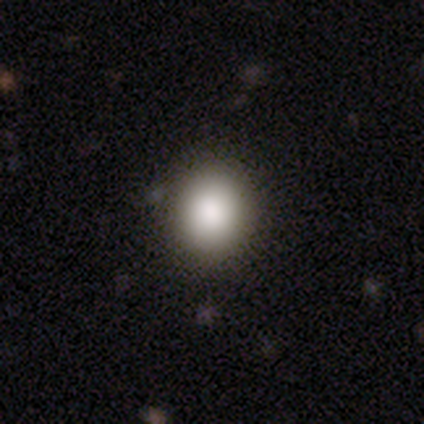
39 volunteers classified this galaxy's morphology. Smooth or featured? smooth (90%)
How rounded? round (69%)
Merging? none (62%)